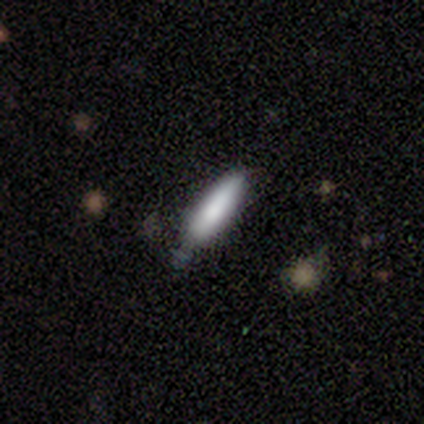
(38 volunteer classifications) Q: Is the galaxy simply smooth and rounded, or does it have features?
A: smooth — 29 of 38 (76%).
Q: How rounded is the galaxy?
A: cigar-shaped — 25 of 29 (86%).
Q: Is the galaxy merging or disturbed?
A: none — 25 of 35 (71%).